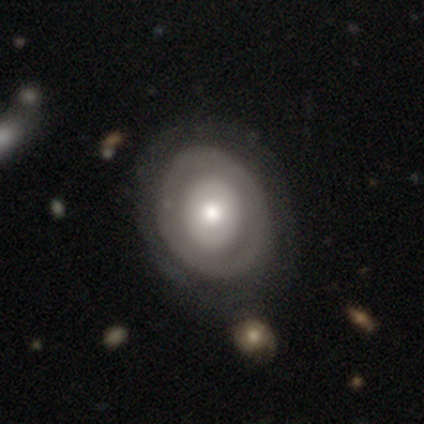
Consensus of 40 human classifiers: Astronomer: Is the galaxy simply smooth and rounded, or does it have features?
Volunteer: featured or disk — 65%.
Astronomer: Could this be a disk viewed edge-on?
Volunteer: no — 96%.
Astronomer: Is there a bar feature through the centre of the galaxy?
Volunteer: no — 92%.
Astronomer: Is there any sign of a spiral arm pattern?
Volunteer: no — 84%.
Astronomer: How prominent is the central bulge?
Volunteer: moderate — 60%.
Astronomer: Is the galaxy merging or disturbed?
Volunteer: none — 69%.